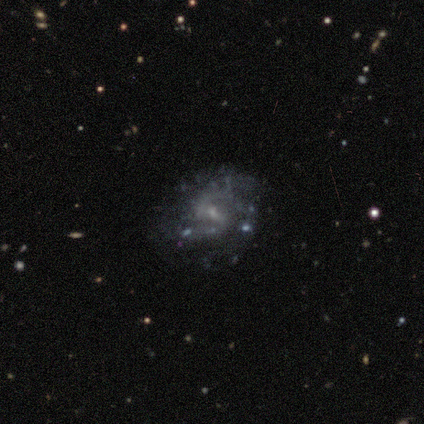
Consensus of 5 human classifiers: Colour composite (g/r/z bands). It shows a featured or disk galaxy (100%) with a weak bar (60%), 3 (40%, tied with can't tell) tight (40%, tied with medium) spiral arms (100%) and a small central bulge (80%). Merging: none (40%, tied with major disturbance).